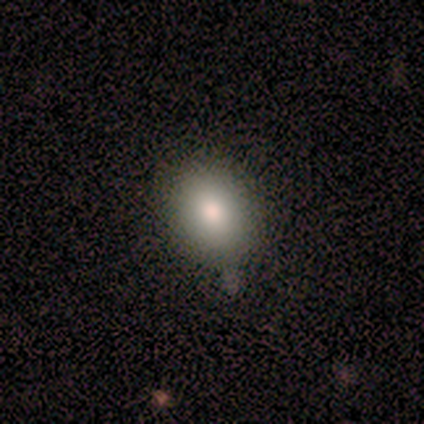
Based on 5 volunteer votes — A smooth galaxy with no disk features (100%) that is round (60%).

Vote fractions:
- Smooth or featured? smooth: 100% / featured or disk: 0% / star or artifact: 0%
- How rounded? round: 60% / in between: 40% / cigar-shaped: 0%
- Merging? none: 100% / minor disturbance: 0% / major disturbance: 0% / merger: 0%